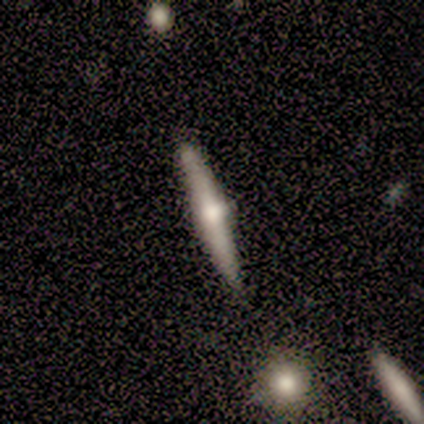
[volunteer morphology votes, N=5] type=featured or disk (80%); edge-on=yes (100%); edge-on bulge=rounded (75%); merging=none (100%).